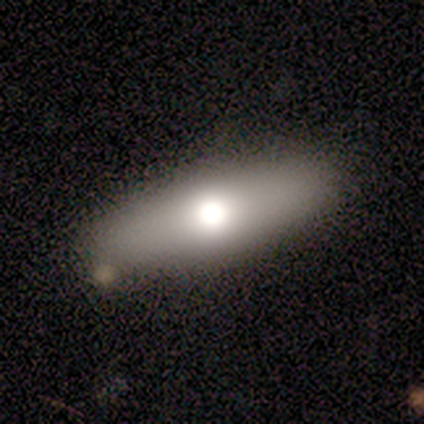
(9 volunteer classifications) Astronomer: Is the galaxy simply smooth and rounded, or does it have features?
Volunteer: smooth — 67%.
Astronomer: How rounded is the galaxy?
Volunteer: in between — 50%, tied with cigar-shaped at 50%.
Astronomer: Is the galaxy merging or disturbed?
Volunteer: none — 86%.